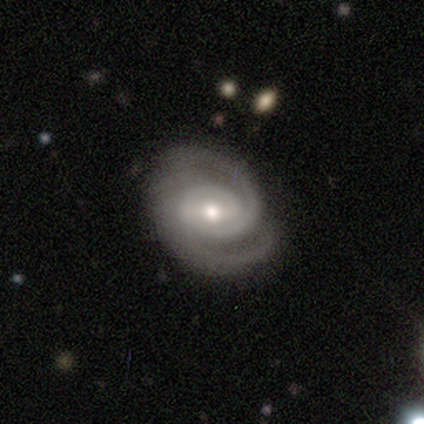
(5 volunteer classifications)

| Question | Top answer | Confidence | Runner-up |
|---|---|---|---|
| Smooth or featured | featured or disk | 60% | smooth (20%) |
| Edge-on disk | no | 100% | — |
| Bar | strong | 33% | tied: weak (33%), no (33%) |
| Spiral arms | yes | 100% | — |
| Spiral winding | tight | 100% | — |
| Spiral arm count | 2 | 100% | — |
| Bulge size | moderate | 100% | — |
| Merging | none | 100% | — |